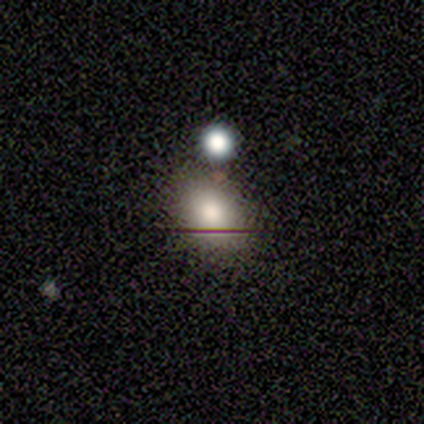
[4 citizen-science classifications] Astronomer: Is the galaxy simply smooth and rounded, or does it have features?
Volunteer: smooth — 75%.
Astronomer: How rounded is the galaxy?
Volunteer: round — 67%.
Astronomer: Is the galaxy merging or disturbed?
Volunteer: none — 100%.